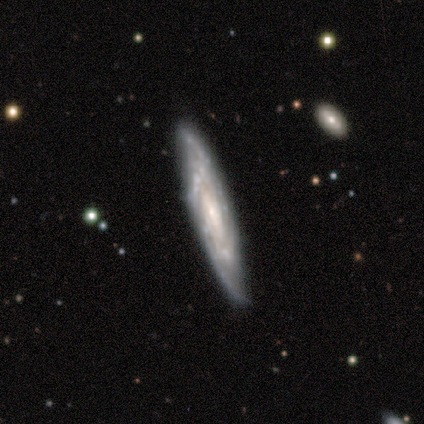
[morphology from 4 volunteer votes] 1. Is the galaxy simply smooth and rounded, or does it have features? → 100% featured or disk, 0% smooth, 0% star or artifact.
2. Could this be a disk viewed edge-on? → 100% no, 0% yes.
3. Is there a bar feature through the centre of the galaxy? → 75% no, 25% weak, 0% strong.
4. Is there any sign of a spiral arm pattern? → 100% yes, 0% no.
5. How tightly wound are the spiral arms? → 75% tight, 25% medium, 0% loose.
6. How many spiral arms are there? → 75% can't tell, 25% 4, 0% 1, 0% 2, 0% 3, 0% more than 4.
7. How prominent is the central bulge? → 75% small, 25% none, 0% dominant, 0% large, 0% moderate.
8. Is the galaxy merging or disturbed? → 100% none, 0% minor disturbance, 0% major disturbance, 0% merger.